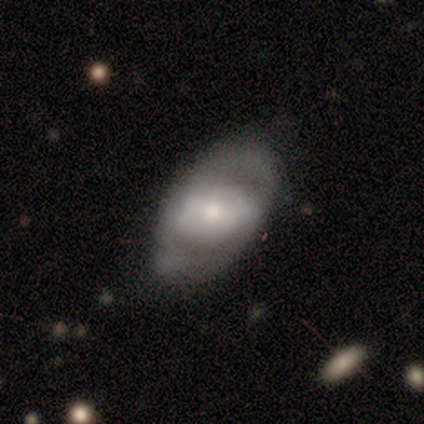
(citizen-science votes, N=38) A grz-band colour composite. It shows a featured or disk galaxy (66%) with no bar (48%), 2 (62%) medium (54%) spiral arms (52%) and a moderate central bulge (44%). Merging: none (56%).